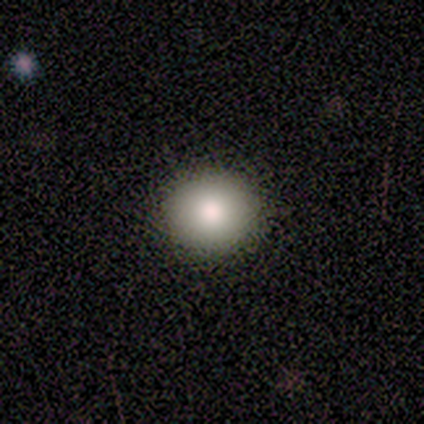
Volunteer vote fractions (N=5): A smooth galaxy with no disk features (40%, tied with star or artifact) that is round (50%, tied with in between).

Vote fractions:
- Smooth or featured? smooth: 40% (tied) / star or artifact: 40% (tied) / featured or disk: 20%
- How rounded? round: 50% (tied) / in between: 50% (tied) / cigar-shaped: 0%
- Merging? none: 67% / minor disturbance: 33% / major disturbance: 0% / merger: 0%